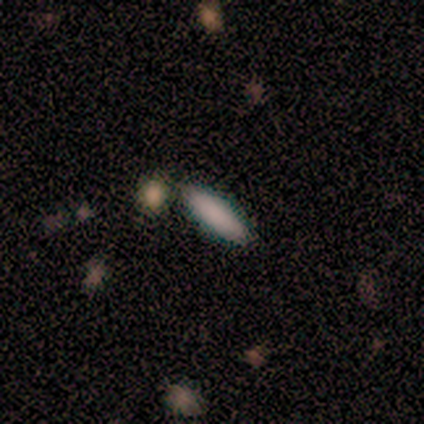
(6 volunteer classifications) Morphology: type=smooth (100%); roundness=cigar-shaped (67%); merging=none (83%).